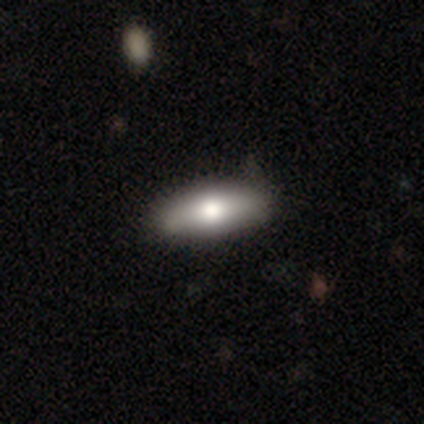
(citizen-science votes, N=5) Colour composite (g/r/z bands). It shows a smooth galaxy with no disk features (60%) that is cigar-shaped (67%). Merging: none (100%).